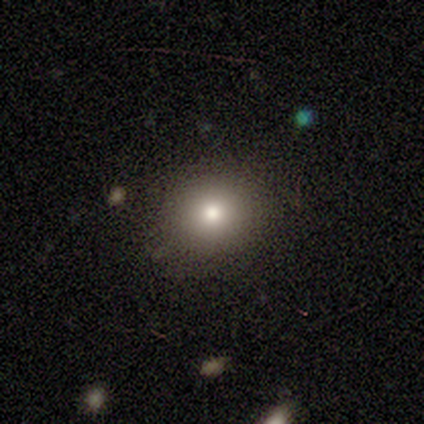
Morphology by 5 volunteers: smooth-or-featured: smooth: 60% | star or artifact: 40% | featured or disk: 0%
  how-rounded: round: 100% | in between: 0% | cigar-shaped: 0%
  merging: none: 100% | minor disturbance: 0% | major disturbance: 0% | merger: 0%